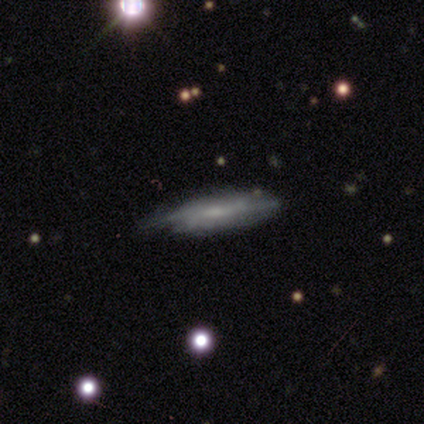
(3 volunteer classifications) Q: Smooth or featured?
A: featured or disk (100%)
Q: Edge-on disk?
A: no (67%); runner-up: yes (33%)
Q: Bar?
A: weak (50%); tied with: no (50%)
Q: Spiral arms?
A: yes (100%)
Q: Spiral winding?
A: tight (50%); tied with: medium (50%)
Q: Spiral arm count?
A: 2 (100%)
Q: Bulge size?
A: moderate (50%); tied with: none (50%)
Q: Merging?
A: none (67%); runner-up: minor disturbance (33%)